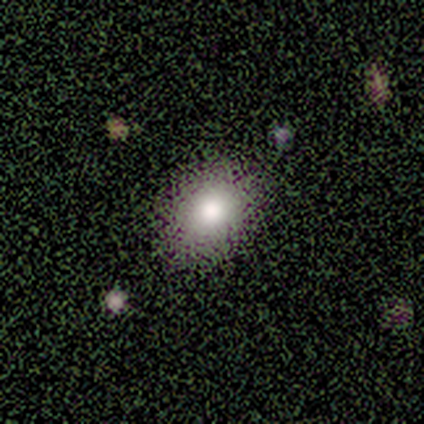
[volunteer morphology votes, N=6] Smooth or featured? smooth (67%)
How rounded? round (50%, tied with in between)
Merging? none (75%)